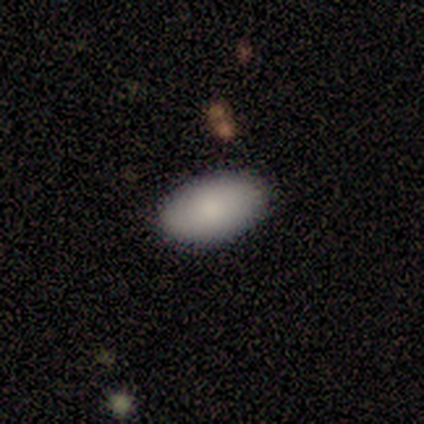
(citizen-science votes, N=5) smooth 60%, featured or disk 20%, star or artifact 20%. Down the decision tree: how rounded — in between (100%); merging — none (100%).